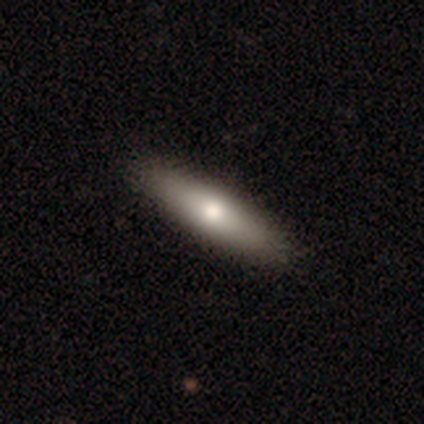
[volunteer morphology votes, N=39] Smooth or featured? 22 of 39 (56%) said smooth. How rounded? 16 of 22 (73%) said cigar-shaped. Merging? 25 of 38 (66%) said none.